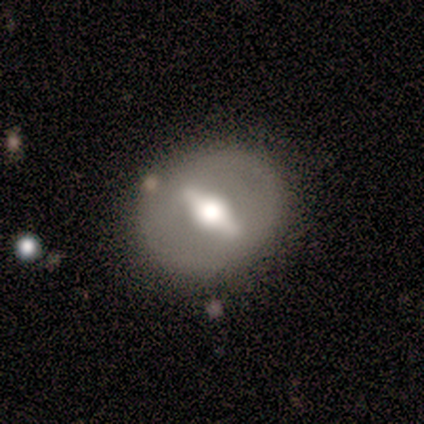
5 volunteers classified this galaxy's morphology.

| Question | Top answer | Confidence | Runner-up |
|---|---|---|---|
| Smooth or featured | featured or disk | 60% | smooth (40%) |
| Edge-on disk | no | 67% | yes (33%) |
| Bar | strong | 100% | — |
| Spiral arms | yes | 50% | tied: no (50%) |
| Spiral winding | medium | 100% | — |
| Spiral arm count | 2 | 100% | — |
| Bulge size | moderate | 100% | — |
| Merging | none | 80% | minor disturbance (20%) |